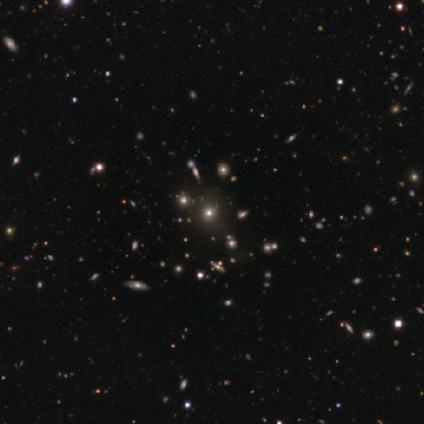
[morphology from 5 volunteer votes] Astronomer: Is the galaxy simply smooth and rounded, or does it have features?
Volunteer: star or artifact — 60% (runner-up: smooth, 40%).